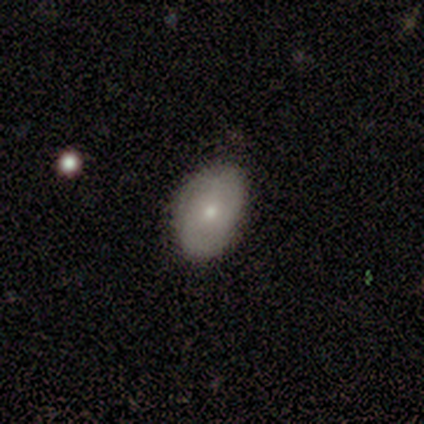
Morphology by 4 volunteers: Volunteers were most divided on "smooth or featured": smooth: 50%, featured or disk: 25%, star or artifact: 25%. More confident: how rounded — in between (100%); merging — none (100%).